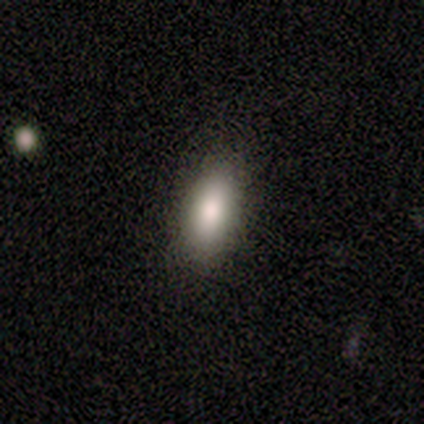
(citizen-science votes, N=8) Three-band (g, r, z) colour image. It shows a smooth galaxy with no disk features (75%) that is in between round and cigar-shaped (83%). Merging: none (100%).